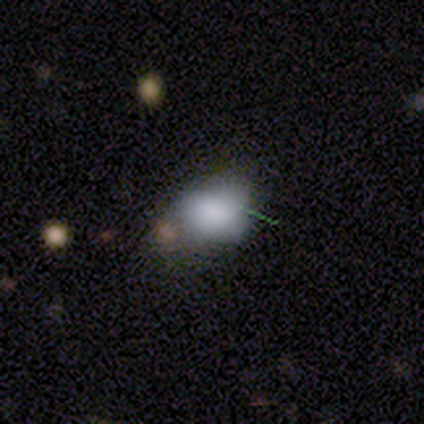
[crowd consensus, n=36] Smooth or featured? smooth (86%)
How rounded? in between (68%)
Merging? minor disturbance (42%)